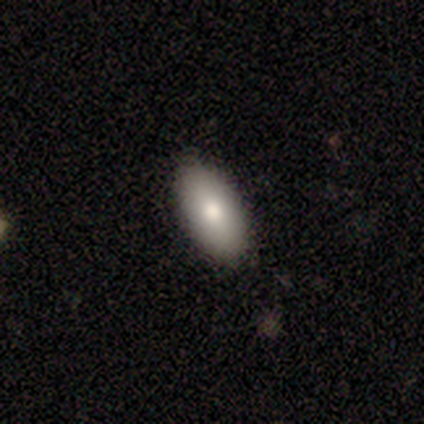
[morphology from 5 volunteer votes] Q: Smooth or featured?
A: smooth (100%)
Q: How rounded?
A: in between (100%)
Q: Merging?
A: none (80%); runner-up: major disturbance (20%)